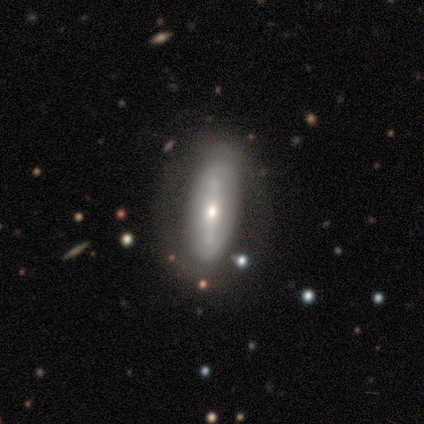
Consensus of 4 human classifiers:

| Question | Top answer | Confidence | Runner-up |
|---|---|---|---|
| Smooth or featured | smooth | 75% | featured or disk (25%) |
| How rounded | in between | 67% | cigar-shaped (33%) |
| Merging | none | 50% | tied: minor disturbance (50%) |